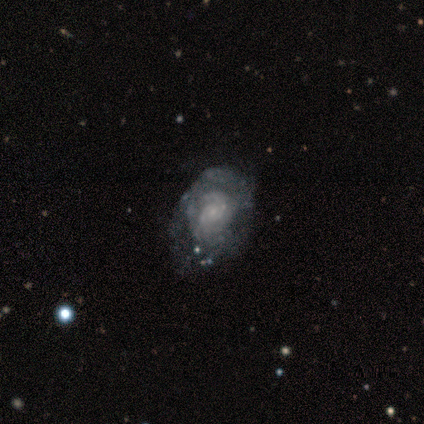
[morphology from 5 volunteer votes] smooth_or_featured: featured or disk (p=0.60) [alt: smooth p=0.20]
disk_edge_on: no (p=0.67) [alt: yes p=0.33]
bar: weak (p=0.50) [tied with: no p=0.50]
has_spiral_arms: yes (p=1.00)
spiral_winding: tight (p=0.50) [tied with: loose p=0.50]
spiral_arm_count: can't tell (p=1.00)
bulge_size: small (p=1.00)
merging: minor disturbance (p=0.50) [alt: none p=0.25]